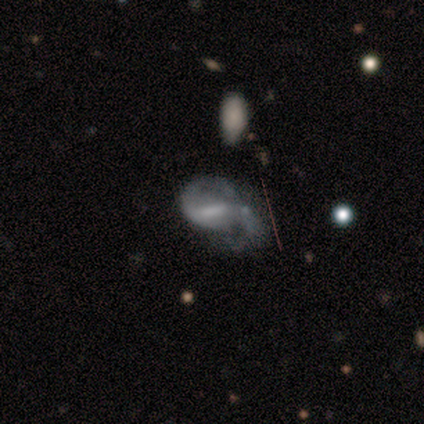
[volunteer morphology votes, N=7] A featured or disk galaxy (86%) with a strong bar (60%), 2 (100%) medium (80%) spiral arms (100%) and no central bulge (60%). Merging: none (71%).